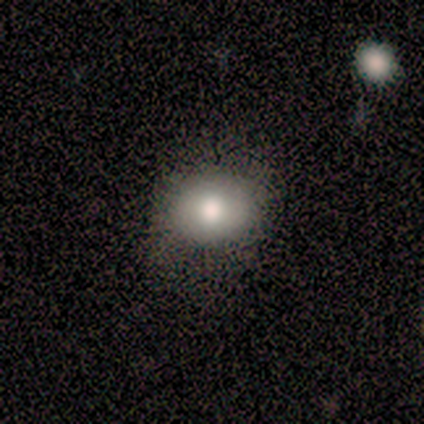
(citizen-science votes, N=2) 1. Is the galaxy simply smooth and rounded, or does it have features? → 100% smooth, 0% featured or disk, 0% star or artifact.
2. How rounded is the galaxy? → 50% round (tied), 50% in between (tied), 0% cigar-shaped.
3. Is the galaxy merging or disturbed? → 100% none, 0% minor disturbance, 0% major disturbance, 0% merger.